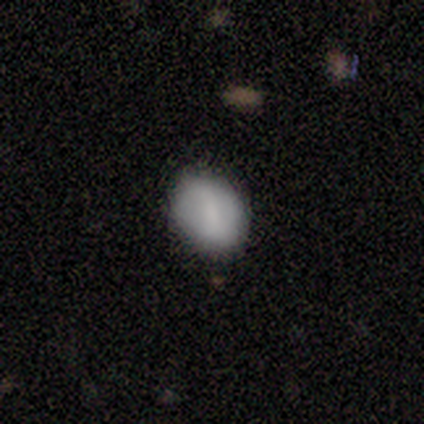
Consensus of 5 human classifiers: Morphology: type=featured or disk (60%); edge-on=no (100%); bar=strong (33%, tied with weak and no); spiral arms=no (67%); bulge=small (67%); merging=none (80%).